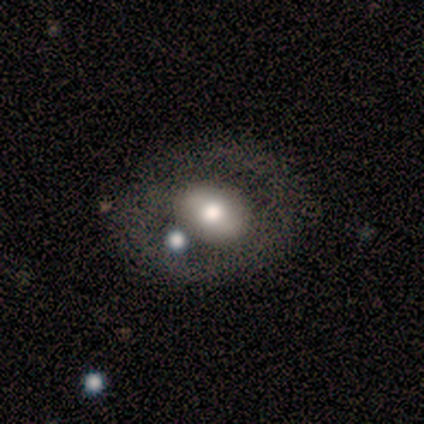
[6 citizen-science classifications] Volunteers were most divided on "merging": none: 50%, major disturbance: 33%, merger: 17%, minor disturbance: 0%. More confident: how rounded — in between (75%); smooth or featured — smooth (67%).